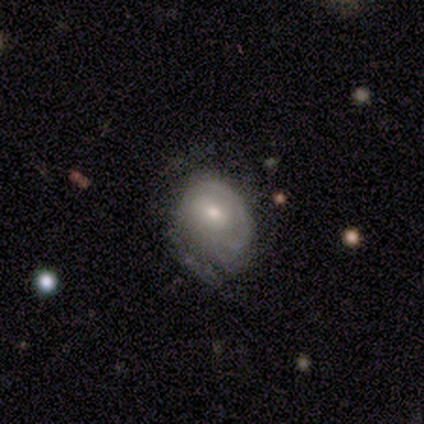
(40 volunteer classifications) Smooth or featured?
  - featured or disk: 75% *
  - smooth: 18%
  - star or artifact: 8%
Edge-on disk?
  - no: 100% *
  - yes: 0%
Bar?
  - no: 73% *
  - weak: 27%
  - strong: 0%
Spiral arms?
  - yes: 77% *
  - no: 23%
Spiral winding?
  - tight: 74% *
  - medium: 17%
  - loose: 9%
Spiral arm count?
  - can't tell: 70% *
  - 2: 22%
  - 1: 9%
  - 3: 0%
  - 4: 0%
  - more than 4: 0%
Bulge size?
  - moderate: 60% *
  - small: 33%
  - large: 7%
  - dominant: 0%
  - none: 0%
Merging?
  - minor disturbance: 43% *
  - none: 38%
  - major disturbance: 16%
  - merger: 3%